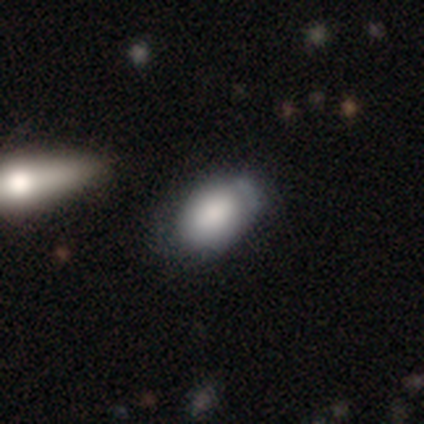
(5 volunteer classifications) smooth-or-featured: smooth: 60% | featured or disk: 20% | star or artifact: 20%
  how-rounded: in between: 67% | round: 33% | cigar-shaped: 0%
  merging: minor disturbance: 75% | none: 25% | major disturbance: 0% | merger: 0%